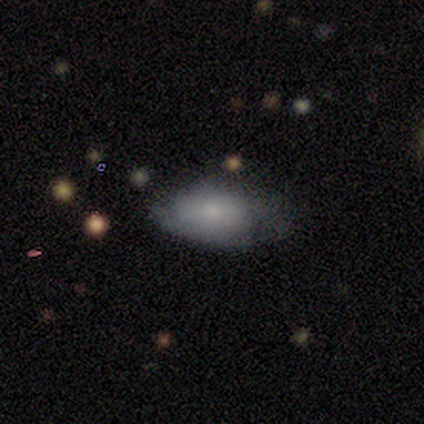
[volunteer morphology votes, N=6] Smooth or featured? smooth (83%)
How rounded? in between (100%)
Merging? none (50%)